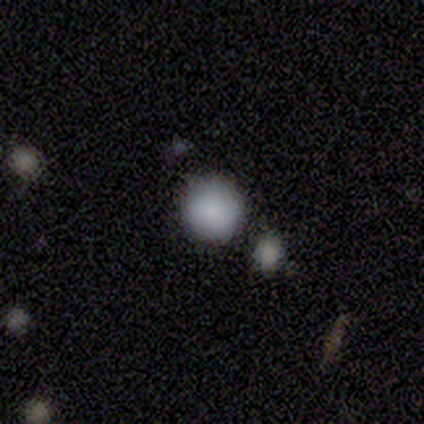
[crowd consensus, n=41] Smooth or featured? smooth (85%)
How rounded? round (97%)
Merging? none (71%)